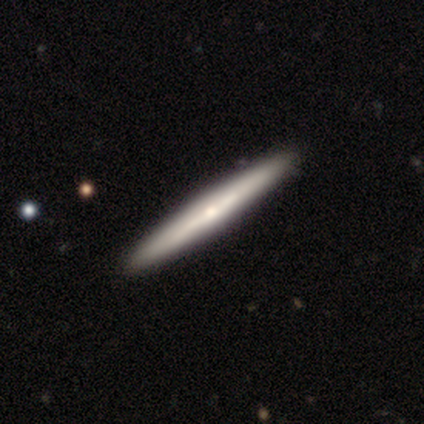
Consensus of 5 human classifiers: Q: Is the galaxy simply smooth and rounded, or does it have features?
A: smooth — 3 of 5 (60%).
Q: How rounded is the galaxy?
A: cigar-shaped — 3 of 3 (100%).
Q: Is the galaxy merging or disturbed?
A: none — 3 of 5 (60%).